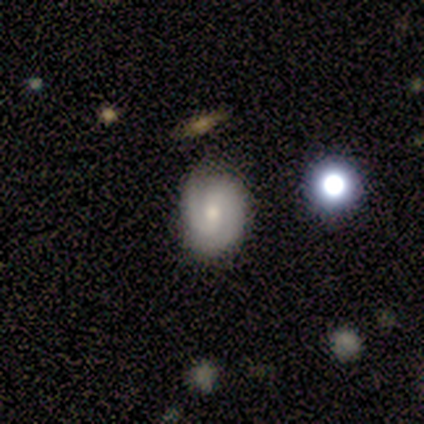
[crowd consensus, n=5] Smooth or featured?
  - smooth: 60% *
  - featured or disk: 40%
  - star or artifact: 0%
How rounded?
  - in between: 67% *
  - round: 33%
  - cigar-shaped: 0%
Merging?
  - none: 60% *
  - minor disturbance: 40%
  - major disturbance: 0%
  - merger: 0%